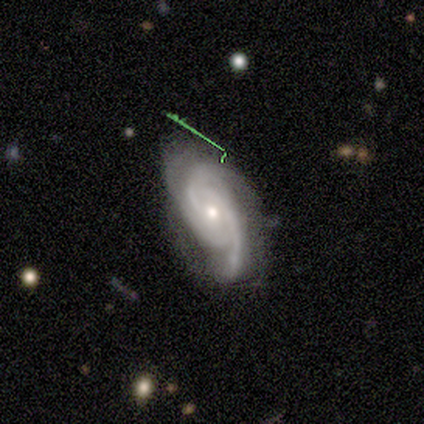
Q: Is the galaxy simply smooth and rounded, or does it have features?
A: featured or disk — 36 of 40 (90%).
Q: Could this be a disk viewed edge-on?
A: no — 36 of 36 (100%).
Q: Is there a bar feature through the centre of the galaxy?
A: no — 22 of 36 (61%).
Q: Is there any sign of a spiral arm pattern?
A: yes — 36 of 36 (100%).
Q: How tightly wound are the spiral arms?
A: tight — 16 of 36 (44%).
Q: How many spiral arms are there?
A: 2 — 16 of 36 (44%).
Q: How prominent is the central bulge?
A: small — 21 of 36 (58%).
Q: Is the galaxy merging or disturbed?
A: none — 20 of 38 (53%).